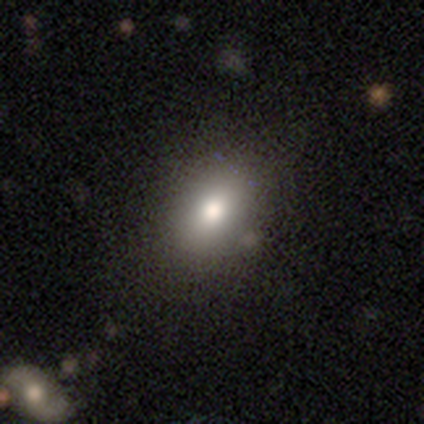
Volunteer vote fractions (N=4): Smooth or featured? smooth (100%)
How rounded? in between (100%)
Merging? none (100%)